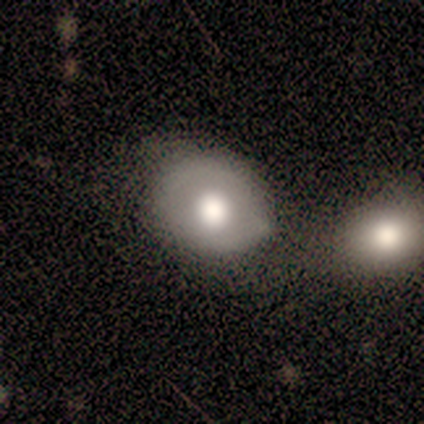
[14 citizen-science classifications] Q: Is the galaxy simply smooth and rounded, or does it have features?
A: smooth — 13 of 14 (93%).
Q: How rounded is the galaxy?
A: round — 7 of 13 (54%).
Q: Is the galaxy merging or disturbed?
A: none — 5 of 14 (36%, tied with merger).